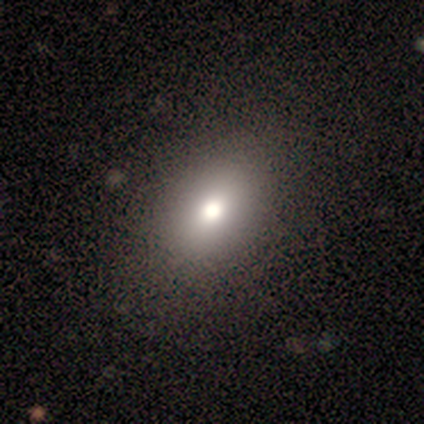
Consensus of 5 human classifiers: smooth-or-featured: smooth: 60% | star or artifact: 40% | featured or disk: 0%
  how-rounded: in between: 67% | round: 33% | cigar-shaped: 0%
  merging: none: 100% | minor disturbance: 0% | major disturbance: 0% | merger: 0%